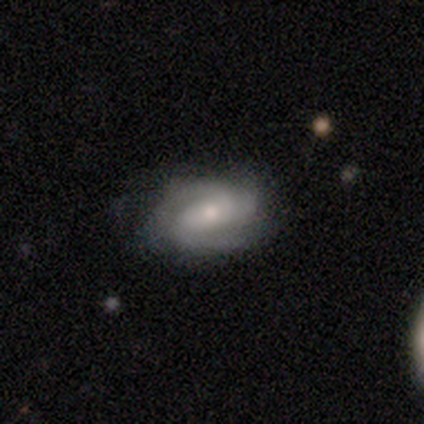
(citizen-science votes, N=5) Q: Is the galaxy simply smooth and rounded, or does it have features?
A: featured or disk — 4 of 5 (80%).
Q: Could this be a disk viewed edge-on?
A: no — 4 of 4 (100%).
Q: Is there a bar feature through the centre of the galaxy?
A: no — 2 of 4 (50%).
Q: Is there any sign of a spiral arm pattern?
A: yes — 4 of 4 (100%).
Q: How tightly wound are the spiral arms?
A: medium — 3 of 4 (75%).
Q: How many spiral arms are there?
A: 3 — 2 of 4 (50%).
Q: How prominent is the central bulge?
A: moderate — 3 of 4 (75%).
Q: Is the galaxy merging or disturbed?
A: none — 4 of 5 (80%).